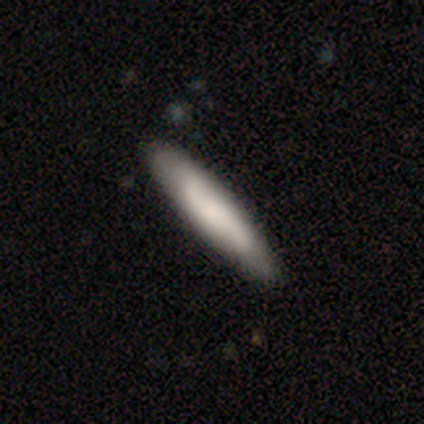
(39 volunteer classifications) smooth-or-featured: smooth: 51% | featured or disk: 49% | star or artifact: 0%
  how-rounded: cigar-shaped: 95% | in between: 5% | round: 0%
  merging: none: 72% | minor disturbance: 5% | merger: 3% | major disturbance: 0%